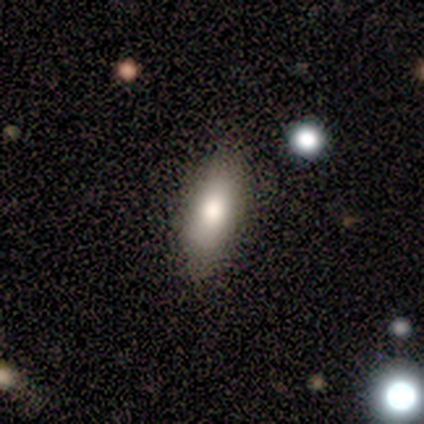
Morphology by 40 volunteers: Smooth or featured? 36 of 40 (90%) said smooth. How rounded? 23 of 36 (64%) said in between. Merging? 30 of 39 (77%) said none.